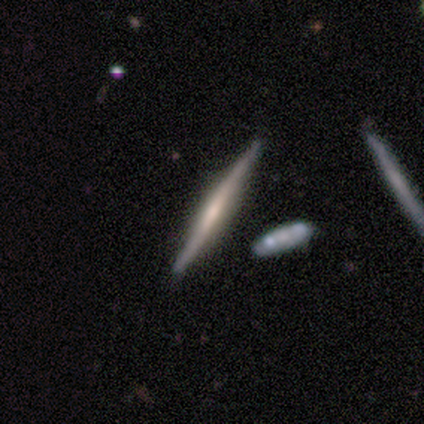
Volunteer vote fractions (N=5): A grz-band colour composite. It shows a featured or disk galaxy (60%) viewed edge-on (100%) with a boxy central bulge (100%). Merging: none (100%).